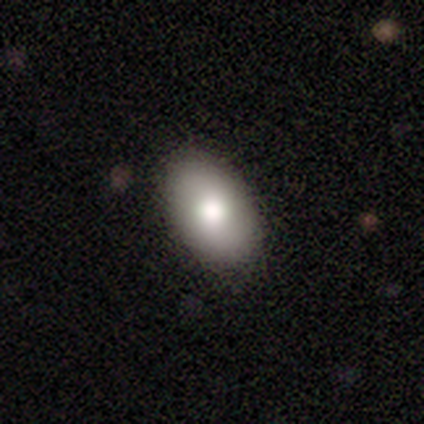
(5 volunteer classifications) Smooth or featured?
  - smooth: 80% *
  - featured or disk: 20%
  - star or artifact: 0%
How rounded?
  - in between: 75% *
  - round: 25%
  - cigar-shaped: 0%
Merging?
  - none: 100% *
  - minor disturbance: 0%
  - major disturbance: 0%
  - merger: 0%